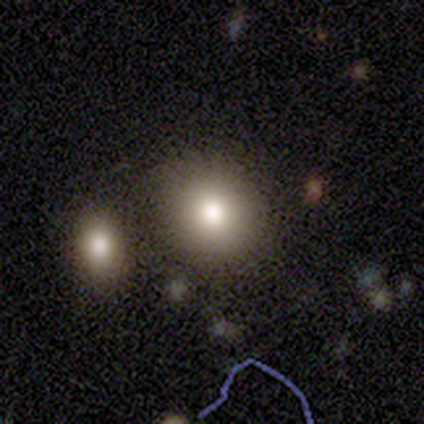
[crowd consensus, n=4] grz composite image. It shows a smooth galaxy with no disk features (100%) that is round (75%). Merging: none (50%).